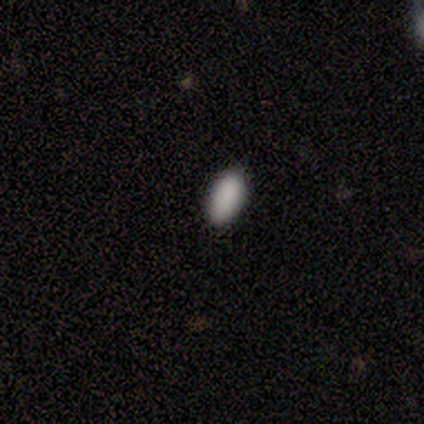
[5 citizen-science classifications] Q: Smooth or featured?
A: smooth (100%)
Q: How rounded?
A: in between (100%)
Q: Merging?
A: none (100%)